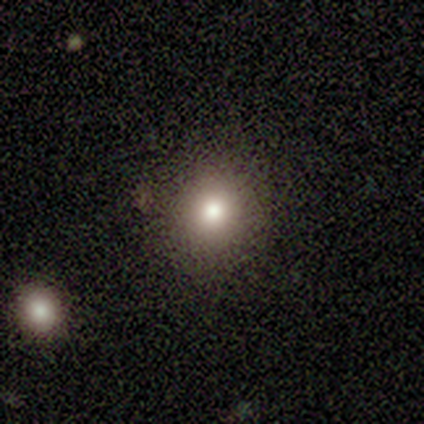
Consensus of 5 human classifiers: smooth-or-featured: smooth: 100% | featured or disk: 0% | star or artifact: 0%
  how-rounded: round: 100% | in between: 0% | cigar-shaped: 0%
  merging: none: 100% | minor disturbance: 0% | major disturbance: 0% | merger: 0%